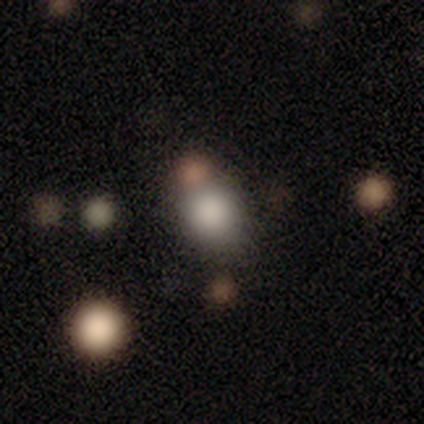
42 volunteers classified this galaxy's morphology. Smooth or featured?
  - smooth: 83% *
  - star or artifact: 12%
  - featured or disk: 5%
How rounded?
  - round: 66% *
  - in between: 34%
  - cigar-shaped: 0%
Merging?
  - none: 65% *
  - merger: 24%
  - minor disturbance: 11%
  - major disturbance: 0%